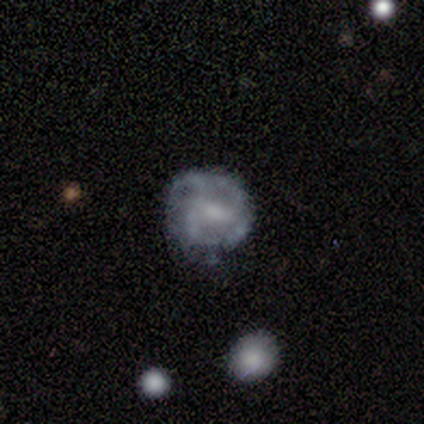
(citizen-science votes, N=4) This is clearly a featured or disk galaxy (100%). It is likely not viewed edge-on (75%). Bar: likely weak (67%). Spiral arm pattern: clearly yes (100%). Spiral arm count: marginally 2 (33%, tied with 3 and can't tell). Spiral winding: likely tight (67%). Central bulge: likely moderate (67%). Merging: possibly none (50%).